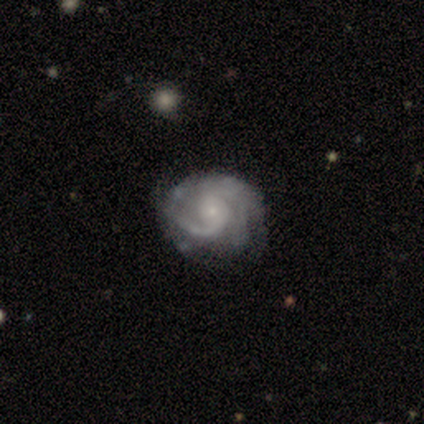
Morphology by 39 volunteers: featured or disk 82%, star or artifact 10%, smooth 8%. Down the decision tree: edge-on disk — no (100%); bar — no (78%); spiral arms — yes (100%); spiral arm count — 2 (50%); spiral winding — tight (53%); bulge size — small (91%); merging — none (69%).